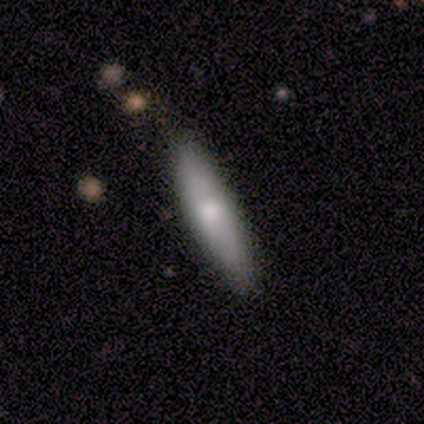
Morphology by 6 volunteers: A smooth galaxy with no disk features (100%) that is cigar-shaped (67%). Merging: none (83%).